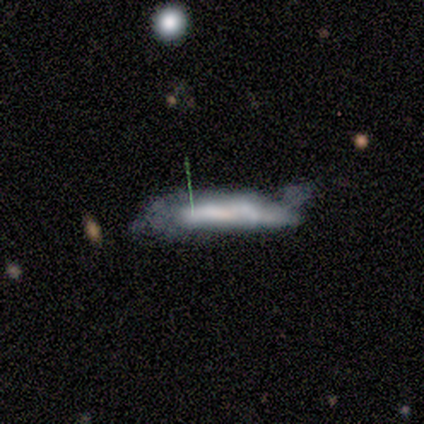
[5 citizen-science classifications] Smooth or featured? 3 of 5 (60%) said featured or disk. Edge-on disk? 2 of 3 (67%) said yes. Edge-on bulge? 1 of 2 (50%, tied with none) said boxy. Merging? 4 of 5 (80%) said minor disturbance.